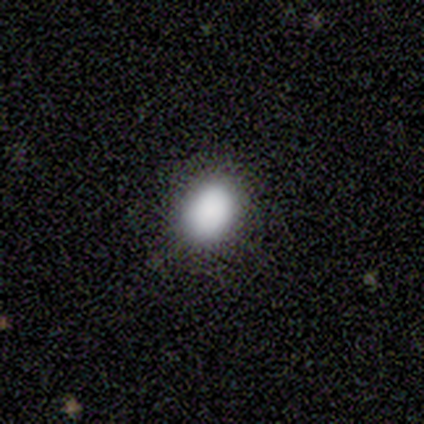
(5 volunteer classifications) Morphology: type=smooth (100%); roundness=in between (80%); merging=none (80%).